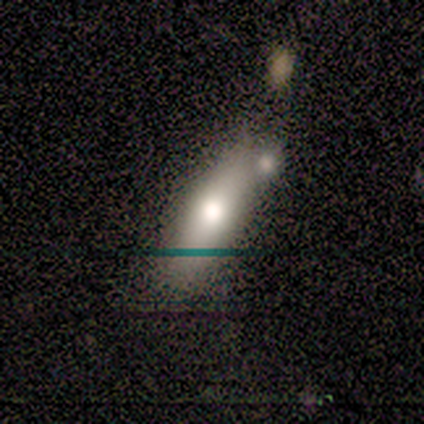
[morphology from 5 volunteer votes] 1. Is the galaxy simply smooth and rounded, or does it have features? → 60% smooth, 20% featured or disk, 20% star or artifact.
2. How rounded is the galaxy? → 67% in between, 33% cigar-shaped, 0% round.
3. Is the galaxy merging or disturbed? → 75% none, 25% minor disturbance, 0% major disturbance, 0% merger.